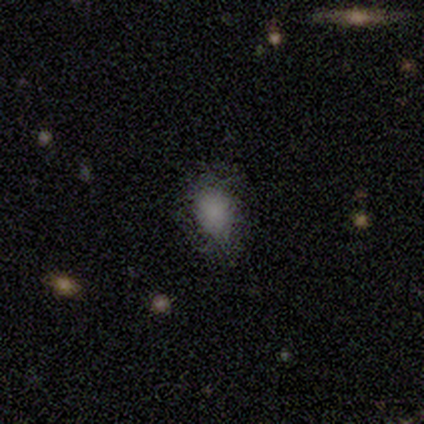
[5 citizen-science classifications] Volunteers were most divided on "how rounded" (2-way tie): round: 50%, in between: 50%, cigar-shaped: 0%. More confident: smooth or featured — smooth (80%); merging — none (50%).